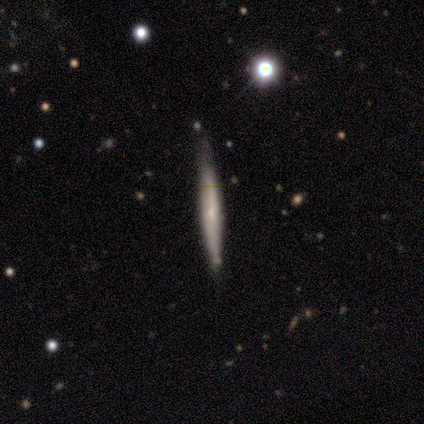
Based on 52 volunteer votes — A featured or disk galaxy (54%) viewed edge-on (96%) with a rounded central bulge (63%).

Vote fractions:
- Smooth or featured? featured or disk: 54% / smooth: 40% / star or artifact: 6%
- Edge-on disk? yes: 96% / no: 4%
- Edge-on bulge? rounded: 63% / none: 33% / boxy: 4%
- Merging? none: 86% / minor disturbance: 14% / major disturbance: 0% / merger: 0%